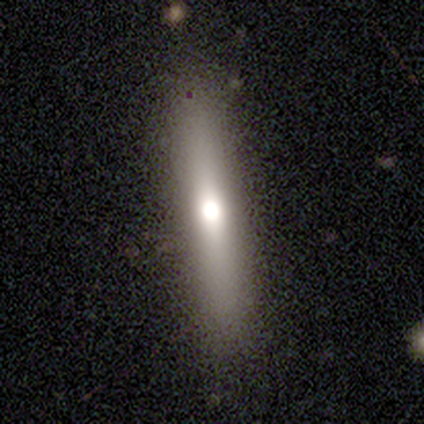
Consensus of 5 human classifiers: Volunteers were most divided on "smooth or featured": featured or disk: 60%, smooth: 40%, star or artifact: 0%. More confident: edge-on disk — yes (100%); edge-on bulge — rounded (100%); merging — none (80%).